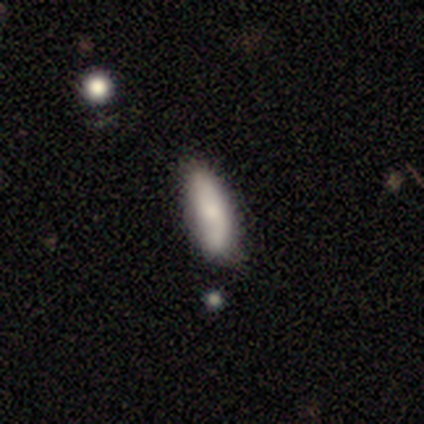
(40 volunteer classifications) Smooth or featured?
  - smooth: 75% *
  - featured or disk: 20%
  - star or artifact: 5%
How rounded?
  - in between: 53% *
  - cigar-shaped: 47%
  - round: 0%
Merging?
  - none: 61% *
  - minor disturbance: 8%
  - merger: 5%
  - major disturbance: 0%